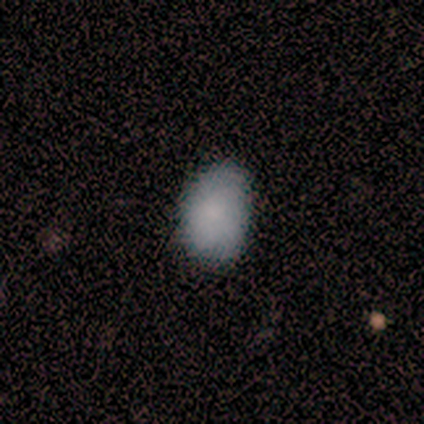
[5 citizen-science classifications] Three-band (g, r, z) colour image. It shows a smooth galaxy with no disk features (80%) that is in between round and cigar-shaped (100%). Merging: none (80%).